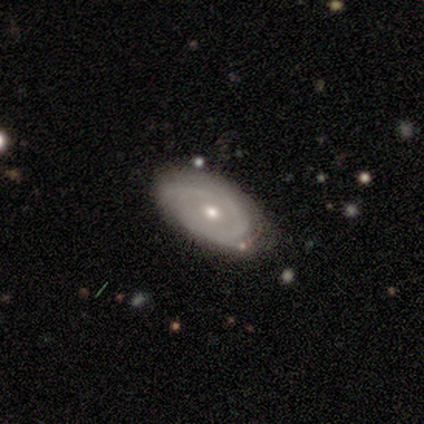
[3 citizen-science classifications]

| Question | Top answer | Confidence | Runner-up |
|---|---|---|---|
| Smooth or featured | featured or disk | 100% | — |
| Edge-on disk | no | 100% | — |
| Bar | no | 100% | — |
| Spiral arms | yes | 100% | — |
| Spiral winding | tight | 67% | medium (33%) |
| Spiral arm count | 2 | 67% | 3 (33%) |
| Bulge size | small | 67% | none (33%) |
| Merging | none | 67% | major disturbance (33%) |